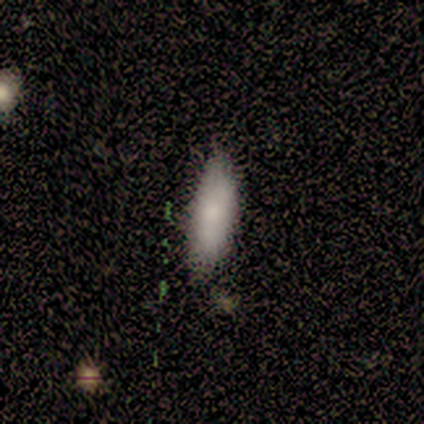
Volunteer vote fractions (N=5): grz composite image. It shows a smooth galaxy with no disk features (100%) that is in between round and cigar-shaped (60%). Merging: none (60%).